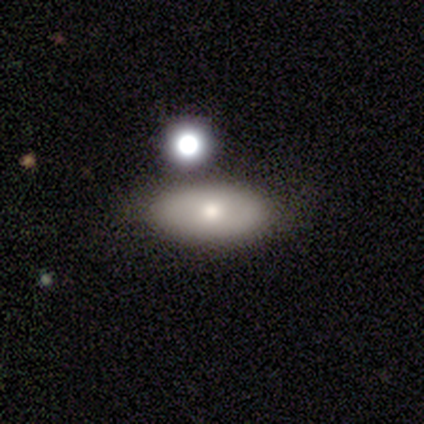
smooth-or-featured: featured or disk: 80% | smooth: 20% | star or artifact: 0%
  disk-edge-on: no: 100% | yes: 0%
    bar: no: 100% | strong: 0% | weak: 0%
    has-spiral-arms: no: 75% | yes: 25%
    bulge-size: small: 50% | moderate: 25% | none: 25% | dominant: 0% | large: 0%
  merging: none: 80% | minor disturbance: 20% | major disturbance: 0% | merger: 0%